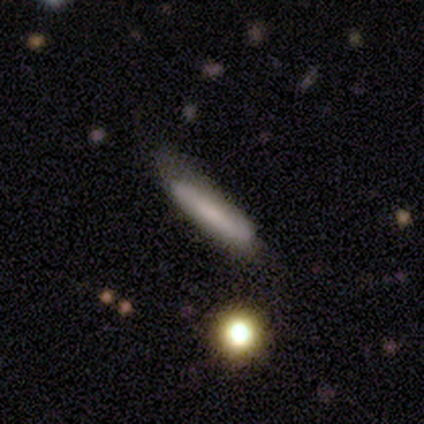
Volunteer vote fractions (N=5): Smooth or featured? smooth (100%)
How rounded? cigar-shaped (100%)
Merging? none (40%, tied with minor disturbance)